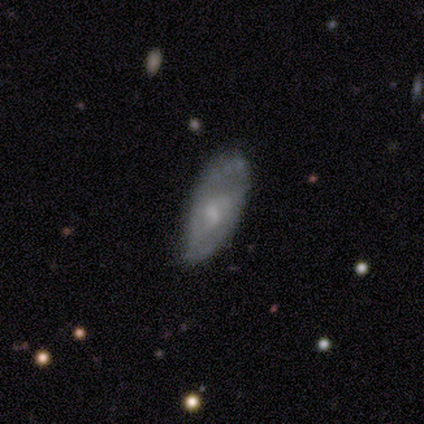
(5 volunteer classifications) smooth 60%, featured or disk 40%, star or artifact 0%. Down the decision tree: how rounded — in between (100%); merging — none (40%, tied with minor disturbance).